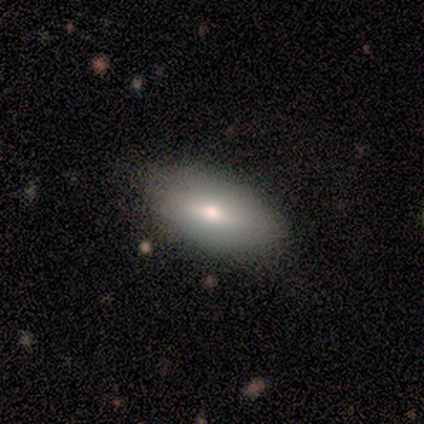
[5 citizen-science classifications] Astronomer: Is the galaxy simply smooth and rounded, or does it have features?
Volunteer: smooth — 60% (runner-up: star or artifact, 40%).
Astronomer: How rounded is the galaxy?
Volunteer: in between — 100%.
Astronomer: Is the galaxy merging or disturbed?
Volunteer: none — 100%.